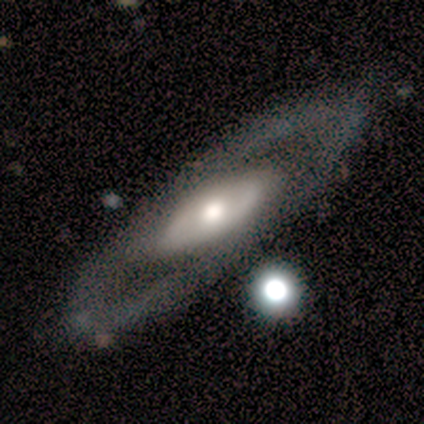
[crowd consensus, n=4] Overall: featured or disk (100%). Edge-on disk: no (100%). Bar: no (100%). Spiral arms: yes (75%). Spiral arm count: can't tell (100%). Spiral winding: loose (67%; medium 33%). Bulge size: moderate (75%). Merging: none (50%; major disturbance 25%).